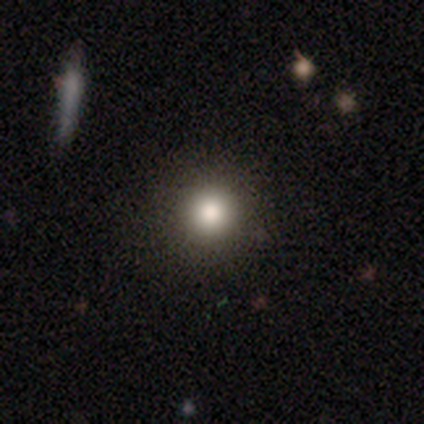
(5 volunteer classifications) A smooth galaxy with no disk features (100%) that is round (100%).

Vote fractions:
- Smooth or featured? smooth: 100% / featured or disk: 0% / star or artifact: 0%
- How rounded? round: 100% / in between: 0% / cigar-shaped: 0%
- Merging? none: 100% / minor disturbance: 0% / major disturbance: 0% / merger: 0%